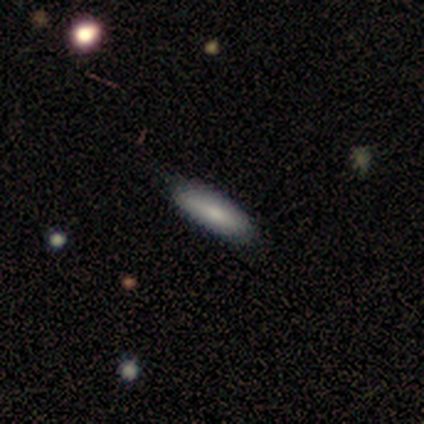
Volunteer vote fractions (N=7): Overall: smooth (86%). How rounded: in between (83%). Merging: none (57%; minor disturbance 43%).